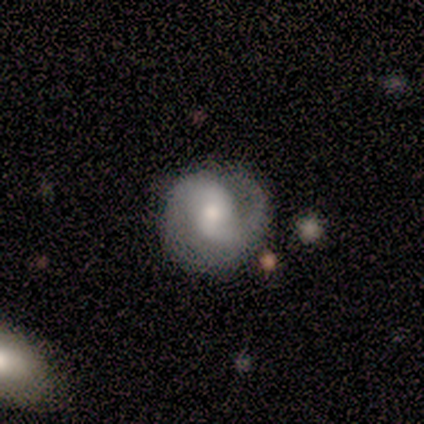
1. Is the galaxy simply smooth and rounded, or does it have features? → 100% featured or disk, 0% smooth, 0% star or artifact.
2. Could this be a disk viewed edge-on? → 100% no, 0% yes.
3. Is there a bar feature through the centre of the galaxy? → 50% weak (tied), 50% no (tied), 0% strong.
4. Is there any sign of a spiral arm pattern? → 75% yes, 25% no.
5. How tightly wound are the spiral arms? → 67% medium, 33% loose, 0% tight.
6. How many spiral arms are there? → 100% 2, 0% 1, 0% 3, 0% 4, 0% more than 4, 0% can't tell.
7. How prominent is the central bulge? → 75% moderate, 25% small, 0% dominant, 0% large, 0% none.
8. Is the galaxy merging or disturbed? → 50% none, 25% minor disturbance, 25% major disturbance, 0% merger.